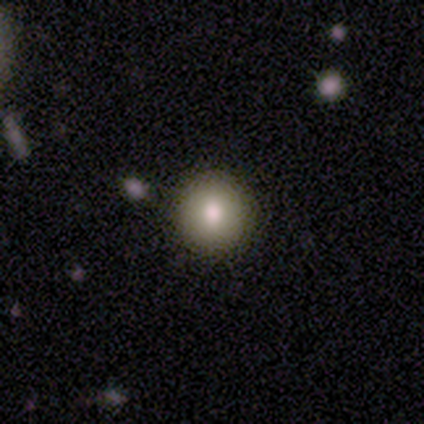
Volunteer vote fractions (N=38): smooth-or-featured: smooth: 87% | featured or disk: 11% | star or artifact: 3%
  how-rounded: round: 94% | in between: 6% | cigar-shaped: 0%
  merging: none: 97% | minor disturbance: 3% | major disturbance: 0% | merger: 0%